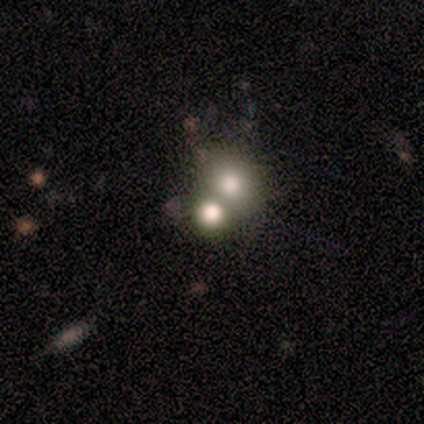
Smooth or featured?
  - smooth: 33% * (tied)
  - featured or disk: 33% * (tied)
  - star or artifact: 33% * (tied)
How rounded?
  - round: 100% *
  - in between: 0%
  - cigar-shaped: 0%
Merging?
  - none: 75% *
  - merger: 25%
  - minor disturbance: 0%
  - major disturbance: 0%